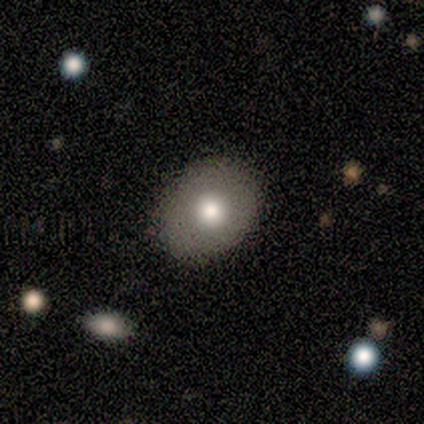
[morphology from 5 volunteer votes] A smooth galaxy with no disk features (80%) that is round (50%, tied with in between). Merging: none (100%).